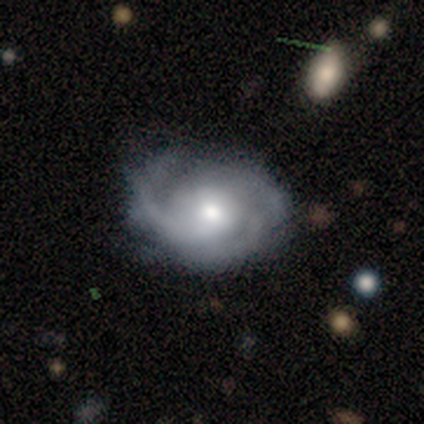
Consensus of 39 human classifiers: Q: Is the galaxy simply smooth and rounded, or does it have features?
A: featured or disk — 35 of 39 (90%).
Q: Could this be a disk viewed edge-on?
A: no — 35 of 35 (100%).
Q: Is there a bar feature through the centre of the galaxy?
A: no — 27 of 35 (77%).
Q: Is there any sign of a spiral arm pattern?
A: yes — 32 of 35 (91%).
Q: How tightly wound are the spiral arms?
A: medium — 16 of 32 (50%).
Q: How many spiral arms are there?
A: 3 — 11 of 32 (34%).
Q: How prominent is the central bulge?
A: moderate — 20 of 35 (57%).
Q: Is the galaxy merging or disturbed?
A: none — 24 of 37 (65%).